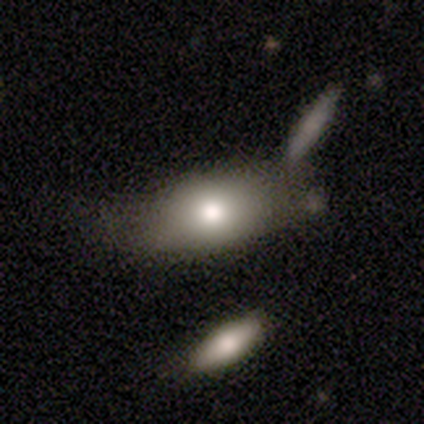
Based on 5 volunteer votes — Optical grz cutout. It shows a smooth galaxy with no disk features (60%) that is in between round and cigar-shaped (100%). Merging: minor disturbance (80%).